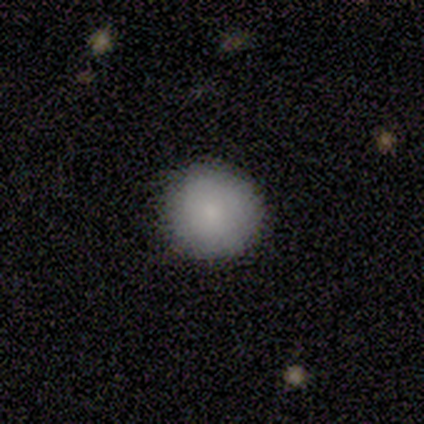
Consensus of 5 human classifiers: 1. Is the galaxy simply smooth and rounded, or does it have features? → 80% smooth, 20% featured or disk, 0% star or artifact.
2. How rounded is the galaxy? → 100% round, 0% in between, 0% cigar-shaped.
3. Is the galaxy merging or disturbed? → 100% none, 0% minor disturbance, 0% major disturbance, 0% merger.